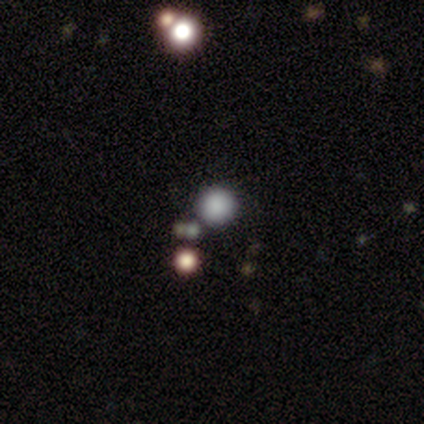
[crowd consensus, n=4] smooth-or-featured: star or artifact: 75% | featured or disk: 25% | smooth: 0%